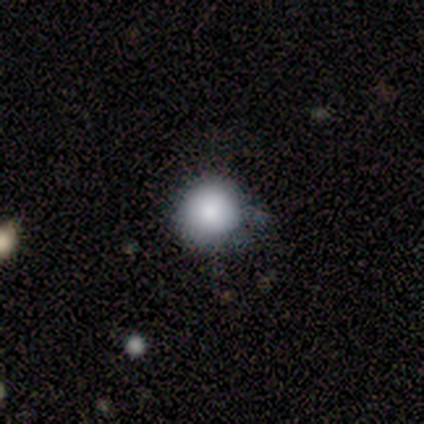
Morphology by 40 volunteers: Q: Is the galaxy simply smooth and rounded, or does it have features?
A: smooth — 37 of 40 (92%).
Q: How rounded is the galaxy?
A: round — 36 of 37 (97%).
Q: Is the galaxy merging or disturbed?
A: none — 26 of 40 (65%).